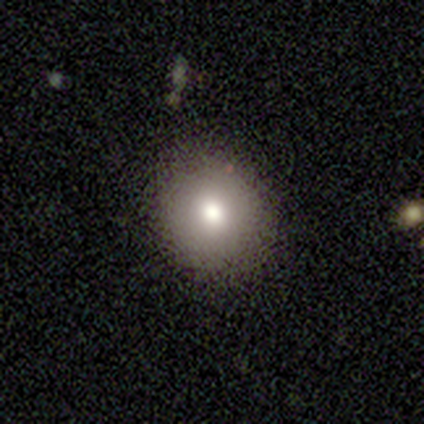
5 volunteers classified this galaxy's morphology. Overall: smooth (80%). How rounded: round (100%). Merging: none (80%).